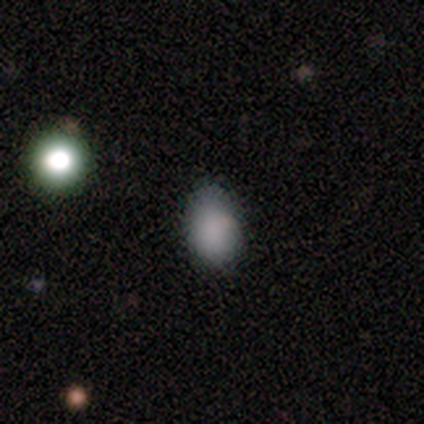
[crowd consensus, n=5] Volunteers were most divided on "merging": minor disturbance: 60%, none: 40%, major disturbance: 0%, merger: 0%. More confident: smooth or featured — smooth (100%); how rounded — in between (80%).